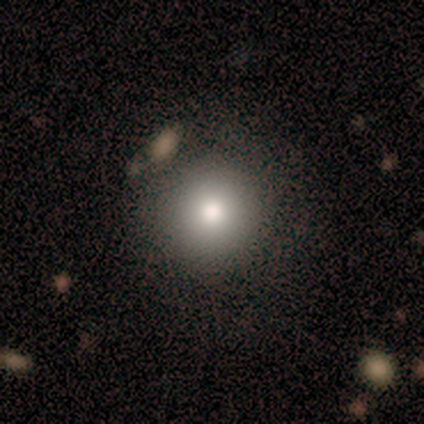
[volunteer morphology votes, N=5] Smooth or featured?
  - smooth: 80% *
  - star or artifact: 20%
  - featured or disk: 0%
How rounded?
  - round: 100% *
  - in between: 0%
  - cigar-shaped: 0%
Merging?
  - none: 100% *
  - minor disturbance: 0%
  - major disturbance: 0%
  - merger: 0%